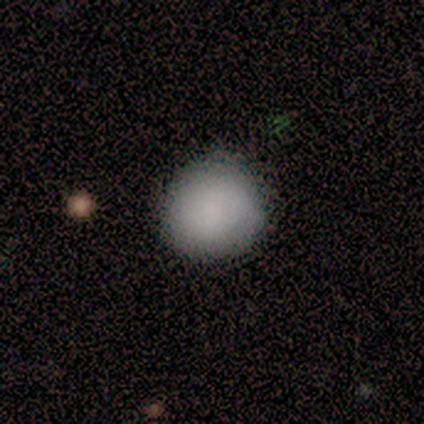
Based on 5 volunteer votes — This is clearly a smooth galaxy (100%). How rounded: clearly round (100%). Merging: clearly none (100%).